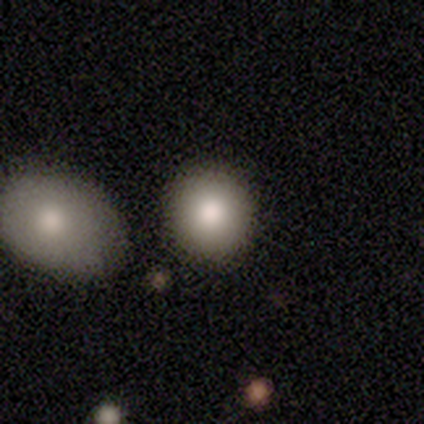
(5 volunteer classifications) smooth_or_featured: smooth (p=1.00)
how_rounded: round (p=1.00)
merging: none (p=1.00)